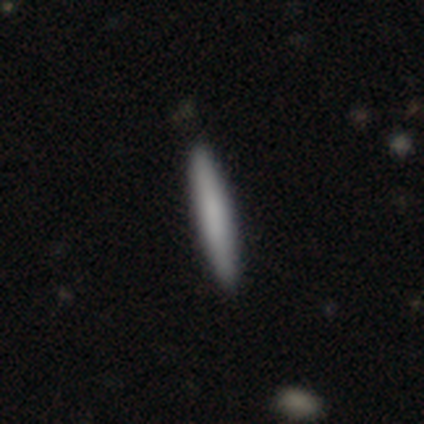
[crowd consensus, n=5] smooth 100%, featured or disk 0%, star or artifact 0%. Down the decision tree: how rounded — cigar-shaped (100%); merging — none (100%).